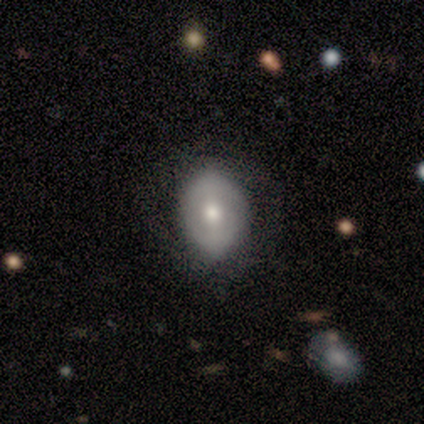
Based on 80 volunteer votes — Q: Smooth or featured?
A: smooth (60%); runner-up: featured or disk (35%)
Q: How rounded?
A: in between (71%); runner-up: round (27%)
Q: Merging?
A: none (34%); runner-up: minor disturbance (13%)